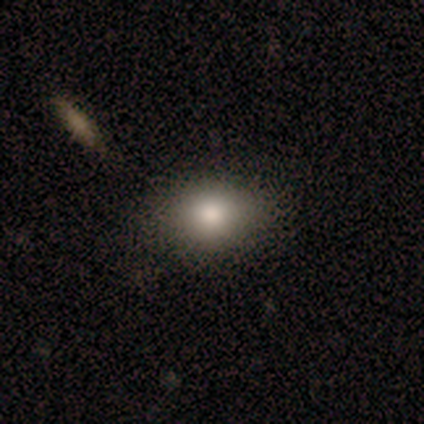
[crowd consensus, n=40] Smooth or featured? 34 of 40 (85%) said smooth. How rounded? 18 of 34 (53%) said round. Merging? 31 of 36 (86%) said none.